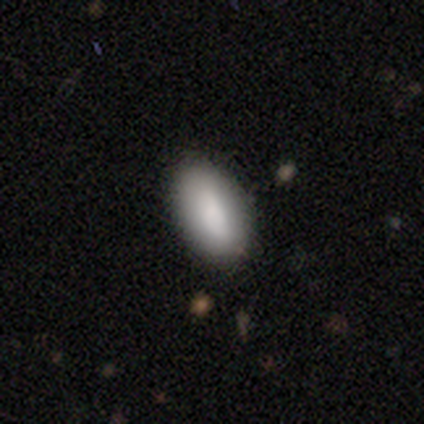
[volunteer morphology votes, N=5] A smooth galaxy with no disk features (100%) that is in between round and cigar-shaped (80%). Merging: none (100%).